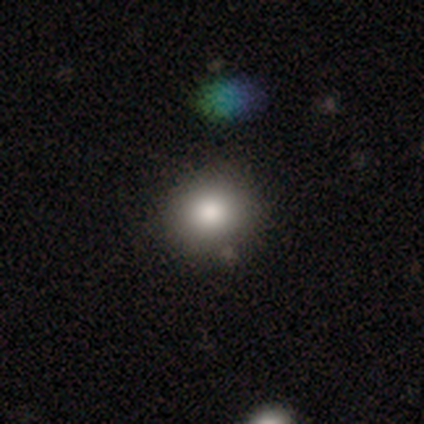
Smooth or featured? smooth (83%)
How rounded? round (100%)
Merging? none (80%)